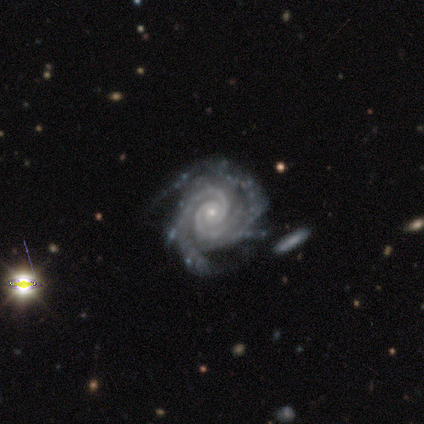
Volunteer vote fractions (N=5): A featured or disk galaxy (100%) with no bar (80%), 2 (60%) tight (80%) spiral arms (100%) and a small central bulge (80%).

Vote fractions:
- Smooth or featured? featured or disk: 100% / smooth: 0% / star or artifact: 0%
- Edge-on disk? no: 100% / yes: 0%
- Bar? no: 80% / strong: 20% / weak: 0%
- Spiral arms? yes: 100% / no: 0%
- Spiral winding? tight: 80% / medium: 20% / loose: 0%
- Spiral arm count? 2: 60% / 4: 40% / 1: 0% / 3: 0% / more than 4: 0% / can't tell: 0%
- Bulge size? small: 80% / moderate: 20% / dominant: 0% / large: 0% / none: 0%
- Merging? none: 40% / minor disturbance: 20% / major disturbance: 20% / merger: 20%